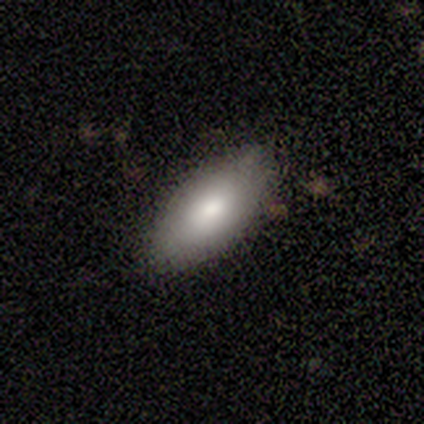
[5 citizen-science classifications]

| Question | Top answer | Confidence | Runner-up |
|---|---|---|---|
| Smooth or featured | smooth | 80% | star or artifact (20%) |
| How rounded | in between | 100% | — |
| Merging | none | 100% | — |